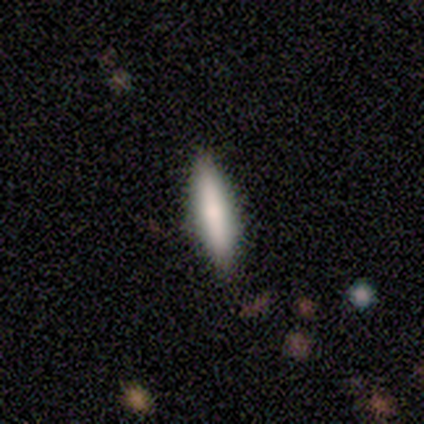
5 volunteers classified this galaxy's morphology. This appears to be a smooth galaxy with no disk features (100%) that is cigar-shaped (80%). Merging: none (100%).